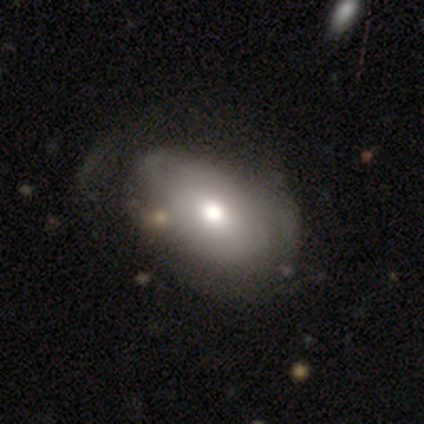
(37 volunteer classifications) Q: Smooth or featured?
A: smooth (70%); runner-up: featured or disk (19%)
Q: How rounded?
A: in between (81%); runner-up: round (19%)
Q: Merging?
A: none (42%); runner-up: minor disturbance (30%)